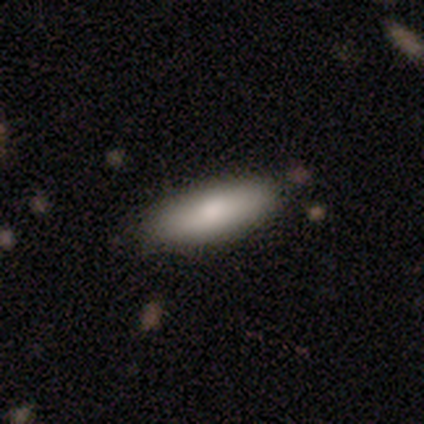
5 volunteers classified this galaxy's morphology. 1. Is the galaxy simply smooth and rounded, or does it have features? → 100% smooth, 0% featured or disk, 0% star or artifact.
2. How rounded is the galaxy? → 100% in between, 0% round, 0% cigar-shaped.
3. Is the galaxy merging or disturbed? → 60% none, 40% minor disturbance, 0% major disturbance, 0% merger.